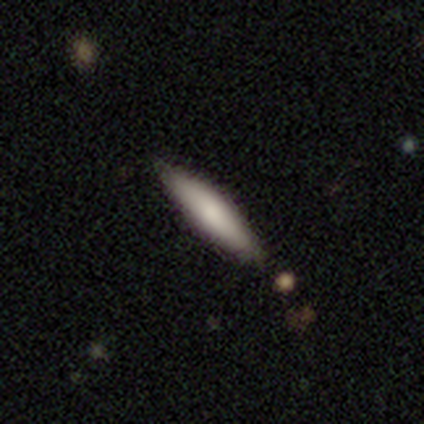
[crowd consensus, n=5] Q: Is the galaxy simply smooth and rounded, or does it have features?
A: smooth — 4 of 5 (80%).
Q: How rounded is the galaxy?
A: cigar-shaped — 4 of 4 (100%).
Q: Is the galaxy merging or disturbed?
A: none — 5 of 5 (100%).